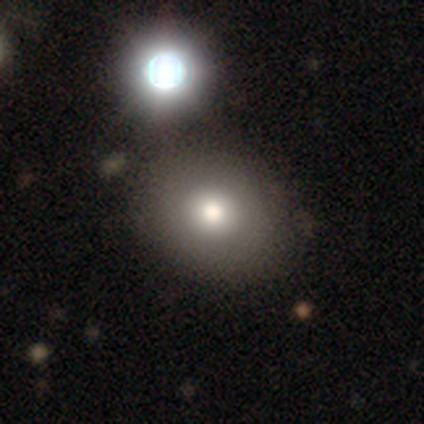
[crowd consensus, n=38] smooth_or_featured: smooth (p=0.79) [alt: featured or disk p=0.11]
how_rounded: in between (p=0.53) [alt: round p=0.47]
merging: none (p=0.65) [alt: minor disturbance p=0.18]